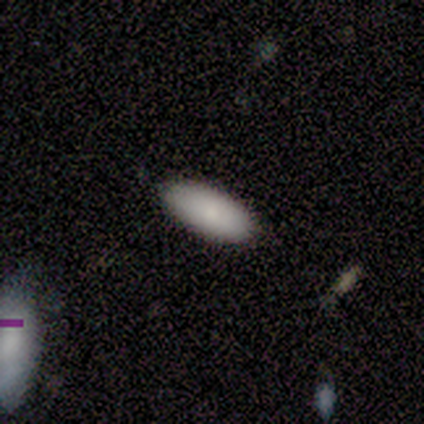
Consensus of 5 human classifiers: This is clearly a smooth galaxy (100%). How rounded: clearly in between (100%). Merging: marginally none (40%).